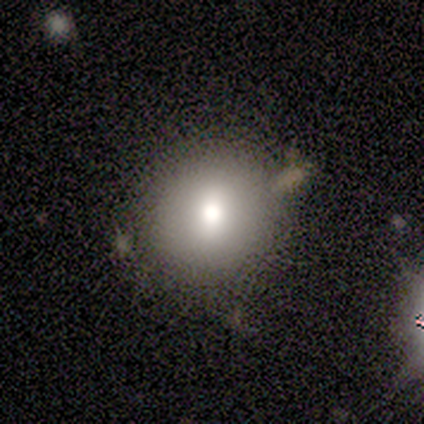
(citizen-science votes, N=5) This appears to be a smooth galaxy with no disk features (100%) that is round (100%). Merging: none (100%).